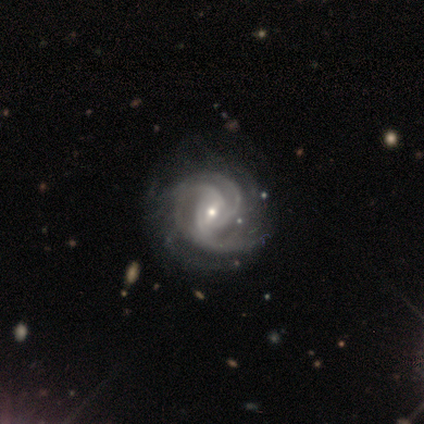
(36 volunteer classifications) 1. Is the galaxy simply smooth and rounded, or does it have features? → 100% featured or disk, 0% smooth, 0% star or artifact.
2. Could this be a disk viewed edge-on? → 100% no, 0% yes.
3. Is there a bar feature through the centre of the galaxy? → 47% weak, 39% no, 14% strong.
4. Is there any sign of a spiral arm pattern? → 100% yes, 0% no.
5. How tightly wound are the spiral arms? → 53% tight, 44% medium, 3% loose.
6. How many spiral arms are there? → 50% 3, 19% can't tell, 11% 2, 11% 4, 6% more than 4, 3% 1.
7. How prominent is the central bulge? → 72% small, 25% moderate, 3% large, 0% dominant, 0% none.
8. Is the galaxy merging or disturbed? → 42% none, 11% minor disturbance, 8% major disturbance, 0% merger.